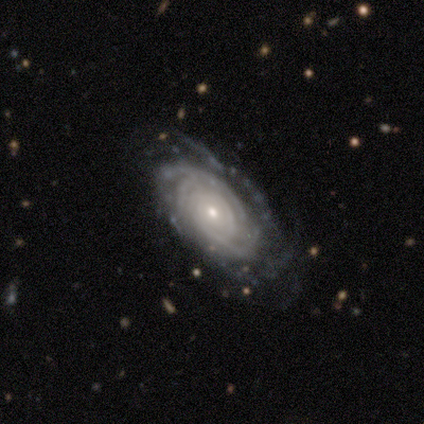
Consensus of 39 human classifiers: Morphology: type=featured or disk (87%); edge-on=no (97%); bar=no (76%); spiral arms=yes (100%); winding=tight (85%); arm count=can't tell (36%); bulge=small (67%); merging=none (71%).